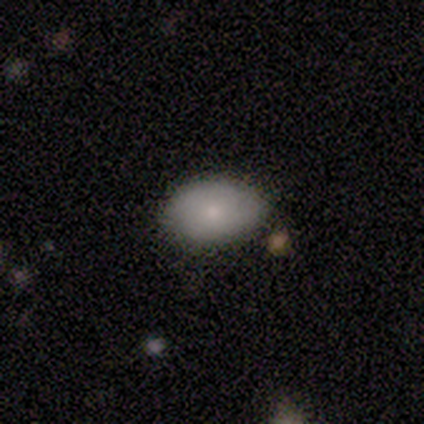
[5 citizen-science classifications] Q: Smooth or featured?
A: smooth (40%); tied with: featured or disk (40%)
Q: How rounded?
A: in between (100%)
Q: Merging?
A: none (100%)